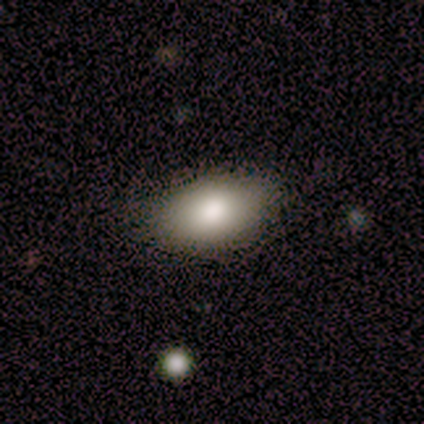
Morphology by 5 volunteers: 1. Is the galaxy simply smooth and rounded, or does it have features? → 80% smooth, 20% star or artifact, 0% featured or disk.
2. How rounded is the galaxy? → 100% in between, 0% round, 0% cigar-shaped.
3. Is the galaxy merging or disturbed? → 100% none, 0% minor disturbance, 0% major disturbance, 0% merger.